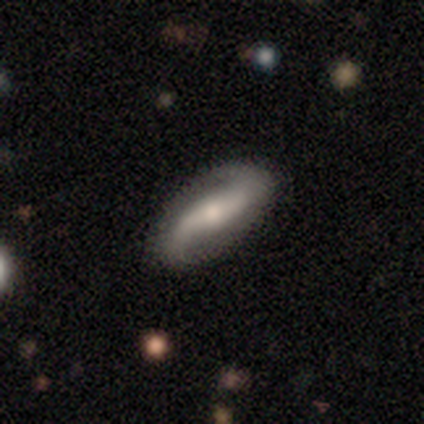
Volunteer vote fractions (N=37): Smooth or featured?
  - featured or disk: 95% *
  - smooth: 5%
  - star or artifact: 0%
Edge-on disk?
  - no: 100% *
  - yes: 0%
Bar?
  - strong: 43% *
  - weak: 37%
  - no: 20%
Spiral arms?
  - yes: 100% *
  - no: 0%
Spiral winding?
  - loose: 71% *
  - medium: 17%
  - tight: 11%
Spiral arm count?
  - 2: 94% *
  - 1: 3%
  - can't tell: 3%
  - 3: 0%
  - 4: 0%
  - more than 4: 0%
Bulge size?
  - moderate: 54% *
  - small: 43%
  - none: 3%
  - dominant: 0%
  - large: 0%
Merging?
  - none: 92% *
  - minor disturbance: 5%
  - major disturbance: 3%
  - merger: 0%